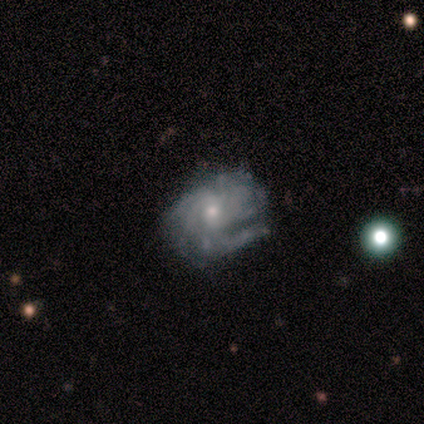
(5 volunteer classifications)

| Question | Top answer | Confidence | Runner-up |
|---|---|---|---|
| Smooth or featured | featured or disk | 80% | smooth (20%) |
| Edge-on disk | no | 100% | — |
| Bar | weak | 50% | tied: no (50%) |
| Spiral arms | yes | 100% | — |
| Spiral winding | tight | 100% | — |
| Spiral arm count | more than 4 | 50% | 3 (25%) |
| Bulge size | small | 100% | — |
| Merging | none | 60% | minor disturbance (40%) |